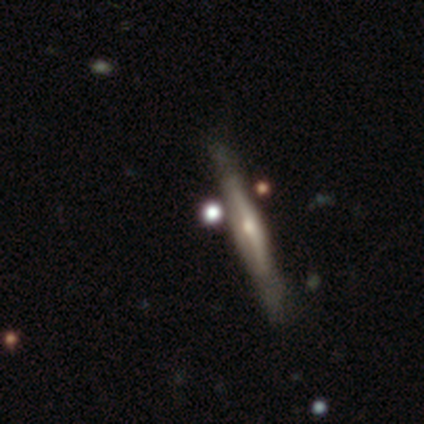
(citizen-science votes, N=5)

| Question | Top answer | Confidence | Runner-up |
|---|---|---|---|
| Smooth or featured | smooth | 40% | tied: featured or disk (40%) |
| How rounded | round | 50% | tied: cigar-shaped (50%) |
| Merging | none | 50% | tied: minor disturbance (50%) |